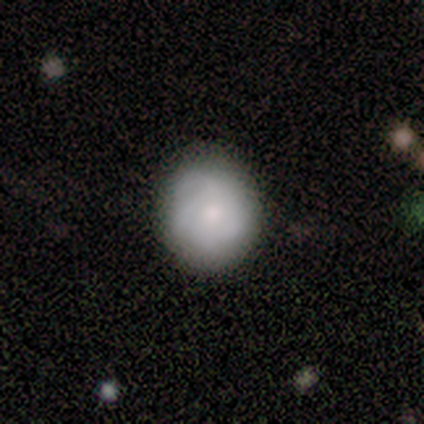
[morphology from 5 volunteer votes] This appears to be a featured or disk galaxy (60%) with no bar (100%), medium (100%) spiral arms (67%) and a moderate central bulge (100%). Merging: none (75%).